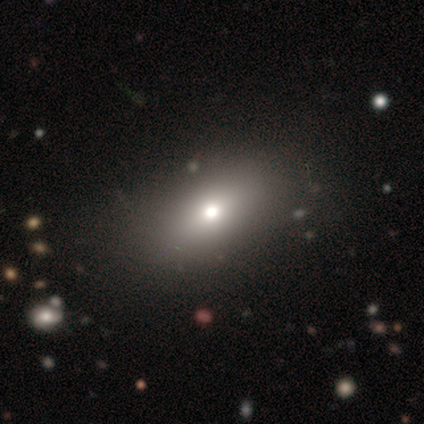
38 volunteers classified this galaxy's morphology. Smooth or featured?
  - smooth: 63% *
  - featured or disk: 21%
  - star or artifact: 16%
How rounded?
  - in between: 79% *
  - round: 17%
  - cigar-shaped: 4%
Merging?
  - none: 59% *
  - major disturbance: 3%
  - minor disturbance: 0%
  - merger: 0%